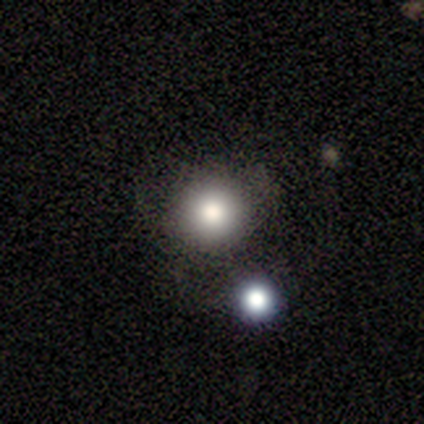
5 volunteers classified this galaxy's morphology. A smooth galaxy with no disk features (60%) that is round (100%). Merging: none (100%).